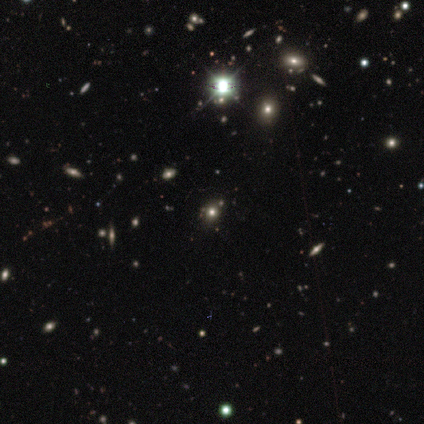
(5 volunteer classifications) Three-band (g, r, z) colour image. It shows a smooth galaxy with no disk features (40%, tied with star or artifact) that is round (100%). Merging: none (100%).